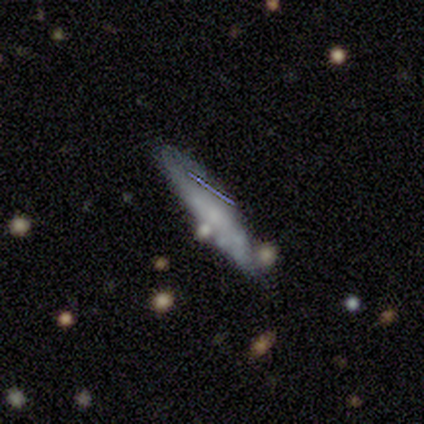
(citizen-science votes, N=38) Overall: smooth (55%; featured or disk 39%). How rounded: cigar-shaped (81%). Merging: none (67%).